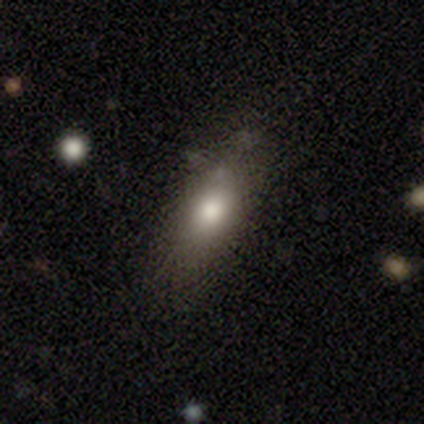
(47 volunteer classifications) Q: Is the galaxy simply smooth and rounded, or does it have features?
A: smooth — 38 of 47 (81%).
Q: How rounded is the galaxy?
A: in between — 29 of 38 (76%).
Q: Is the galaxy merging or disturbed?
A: none — 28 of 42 (67%).